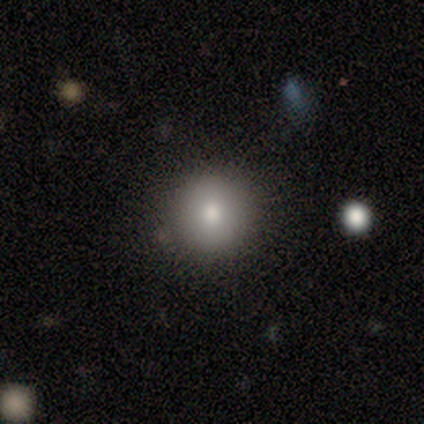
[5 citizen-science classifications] Overall: smooth (60%; featured or disk 20%). How rounded: round (100%). Merging: none (75%).